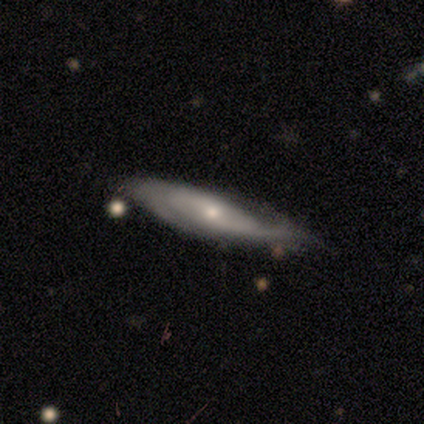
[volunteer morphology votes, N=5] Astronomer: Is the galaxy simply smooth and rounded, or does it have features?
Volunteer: featured or disk — 100%.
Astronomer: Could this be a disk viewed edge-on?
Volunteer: no — 60% (runner-up: yes, 40%).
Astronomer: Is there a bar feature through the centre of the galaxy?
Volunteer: no — 100%.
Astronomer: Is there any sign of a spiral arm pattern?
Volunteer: yes — 100%.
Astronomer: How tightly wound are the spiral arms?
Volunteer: medium — 67%.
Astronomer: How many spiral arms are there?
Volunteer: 2 — 67%.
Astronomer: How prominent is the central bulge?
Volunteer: moderate — 67%.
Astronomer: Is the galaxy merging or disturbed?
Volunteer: none — 60% (runner-up: minor disturbance, 40%).